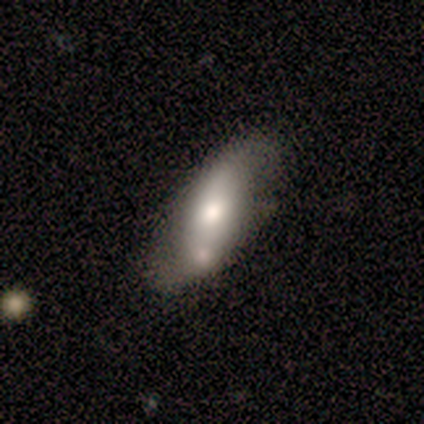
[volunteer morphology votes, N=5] Smooth or featured?
  - smooth: 60% *
  - featured or disk: 40%
  - star or artifact: 0%
How rounded?
  - in between: 67% *
  - cigar-shaped: 33%
  - round: 0%
Merging?
  - none: 80% *
  - minor disturbance: 20%
  - major disturbance: 0%
  - merger: 0%